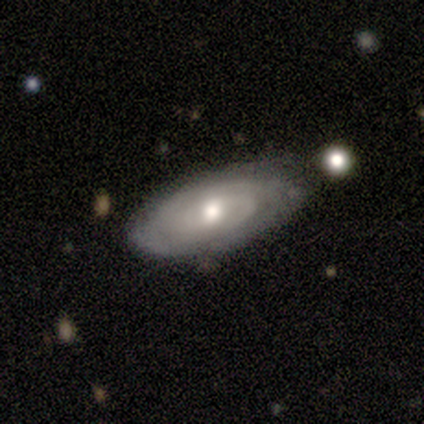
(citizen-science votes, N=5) This appears to be a featured or disk galaxy (60%) with no bar (100%), tight (67%) spiral arms (100%) and a moderate central bulge (100%). Merging: none (100%).